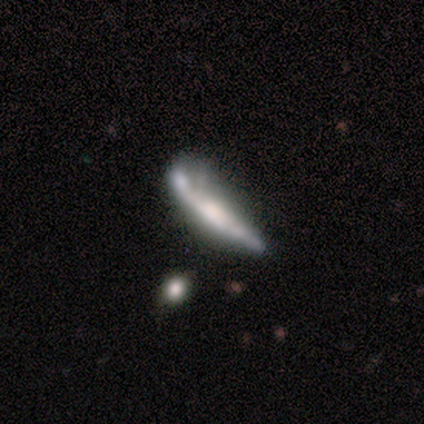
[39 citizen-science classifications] A featured or disk galaxy (72%) viewed edge-on (79%) with a boxy central bulge (36%, tied with rounded). Merging: minor disturbance (30%).